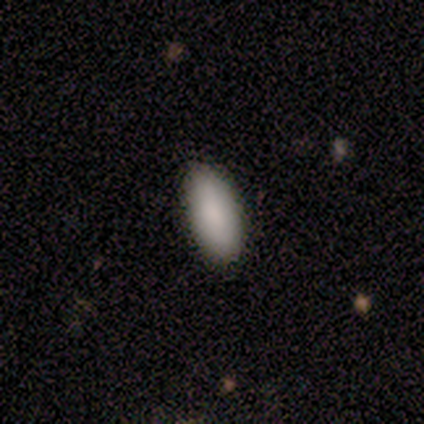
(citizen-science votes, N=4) This appears to be a smooth galaxy with no disk features (100%) that is in between round and cigar-shaped (100%). Merging: none (100%).